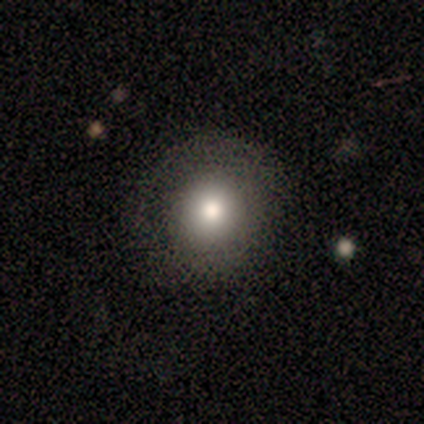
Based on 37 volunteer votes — Q: Smooth or featured?
A: smooth (62%); runner-up: star or artifact (24%)
Q: How rounded?
A: round (91%); runner-up: in between (9%)
Q: Merging?
A: none (82%); runner-up: minor disturbance (11%)